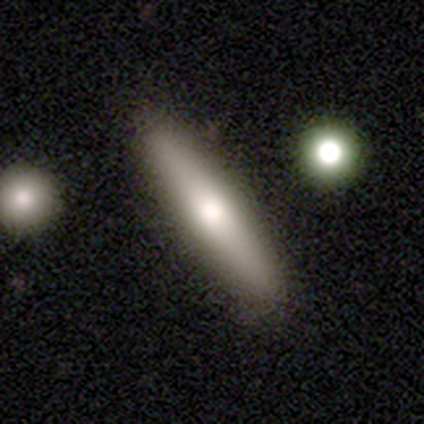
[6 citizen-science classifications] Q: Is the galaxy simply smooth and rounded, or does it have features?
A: smooth — 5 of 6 (83%).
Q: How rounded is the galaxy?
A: cigar-shaped — 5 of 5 (100%).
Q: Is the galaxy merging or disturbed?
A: none — 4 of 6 (67%).